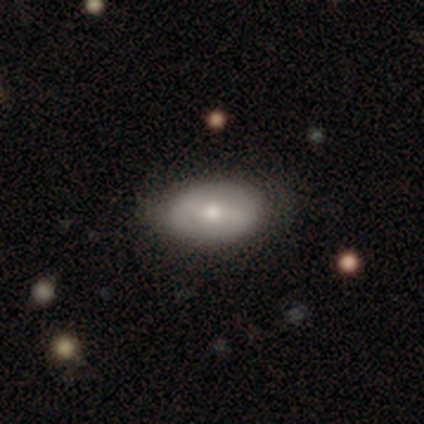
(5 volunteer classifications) Smooth or featured? featured or disk (100%)
Edge-on disk? no (80%)
Bar? strong (50%, tied with no)
Spiral arms? no (75%)
Bulge size? small (75%)
Merging? none (60%)